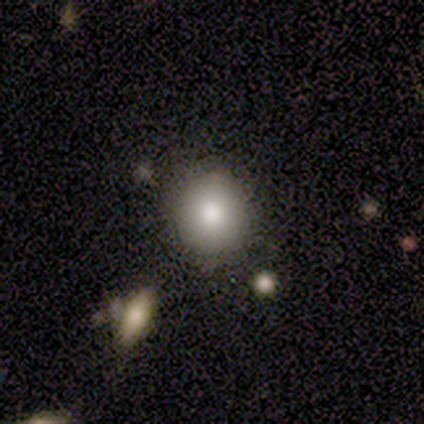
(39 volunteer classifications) Smooth or featured? 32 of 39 (82%) said smooth. How rounded? 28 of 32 (88%) said round. Merging? 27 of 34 (79%) said none.